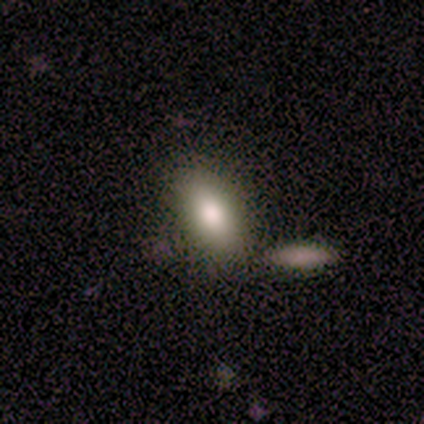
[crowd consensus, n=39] Smooth or featured: smooth — 85% (featured or disk — 8%)
How rounded: in between — 91% (cigar-shaped — 6%)
Merging: none — 75% (merger — 17%)